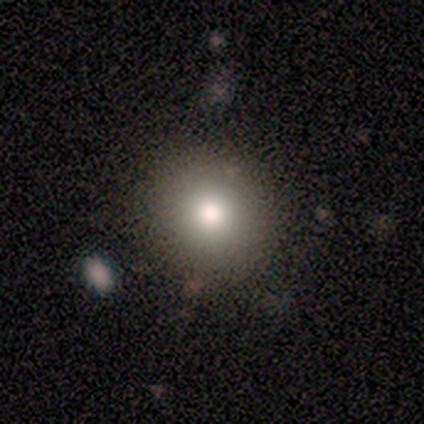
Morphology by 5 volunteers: Overall: smooth (80%). How rounded: round (75%). Merging: none (80%).